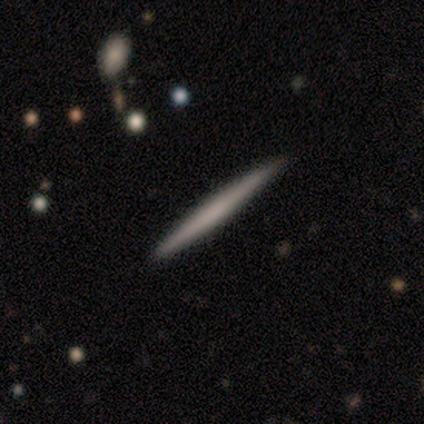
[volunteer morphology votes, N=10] A smooth galaxy with no disk features (70%) that is cigar-shaped (100%).

Vote fractions:
- Smooth or featured? smooth: 70% / featured or disk: 30% / star or artifact: 0%
- How rounded? cigar-shaped: 100% / round: 0% / in between: 0%
- Merging? none: 90% / merger: 10% / minor disturbance: 0% / major disturbance: 0%